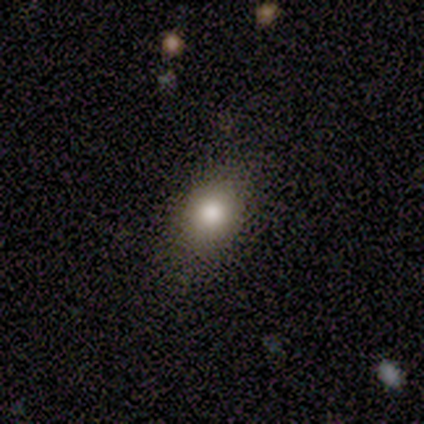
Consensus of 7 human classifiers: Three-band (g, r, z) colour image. It shows a smooth galaxy with no disk features (100%) that is in between round and cigar-shaped (43%). Merging: none (100%).